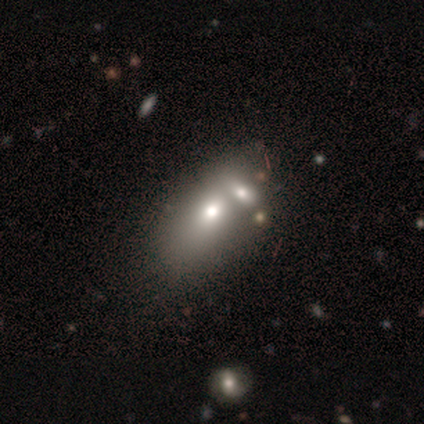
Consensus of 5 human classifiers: This is likely a smooth galaxy (60%). How rounded: clearly in between (100%). Merging: likely merger (75%).